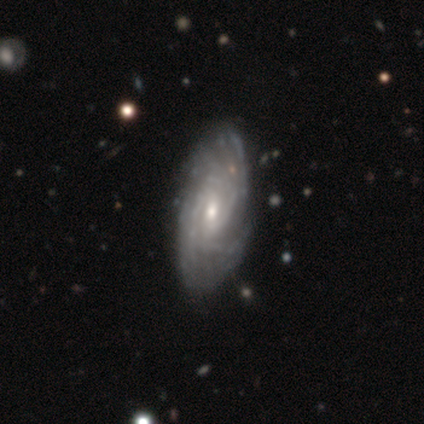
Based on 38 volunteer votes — Smooth or featured?
  - featured or disk: 92% *
  - smooth: 8%
  - star or artifact: 0%
Edge-on disk?
  - no: 94% *
  - yes: 6%
Bar?
  - weak: 52% *
  - no: 42%
  - strong: 6%
Spiral arms?
  - yes: 97% *
  - no: 3%
Spiral winding?
  - tight: 72% *
  - medium: 25%
  - loose: 3%
Spiral arm count?
  - can't tell: 50% *
  - more than 4: 22%
  - 4: 16%
  - 3: 9%
  - 2: 3%
  - 1: 0%
Bulge size?
  - moderate: 67% *
  - small: 33%
  - dominant: 0%
  - large: 0%
  - none: 0%
Merging?
  - none: 58% *
  - minor disturbance: 13%
  - major disturbance: 3%
  - merger: 0%